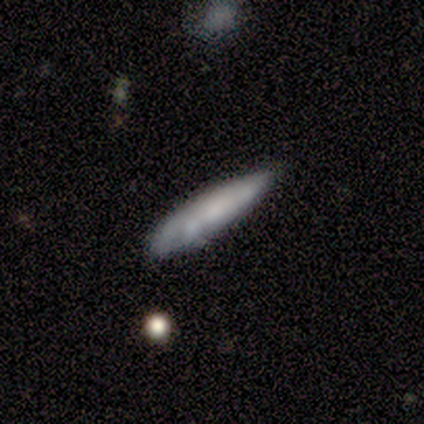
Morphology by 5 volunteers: smooth-or-featured: smooth: 80% | featured or disk: 20% | star or artifact: 0%
  how-rounded: cigar-shaped: 100% | round: 0% | in between: 0%
  merging: minor disturbance: 60% | none: 40% | major disturbance: 0% | merger: 0%